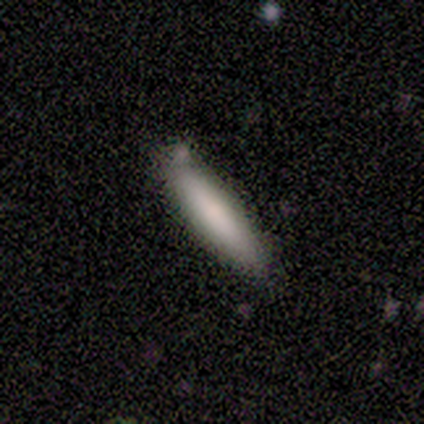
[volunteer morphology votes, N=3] This is clearly a smooth galaxy (100%). How rounded: clearly cigar-shaped (100%). Merging: clearly none (100%).